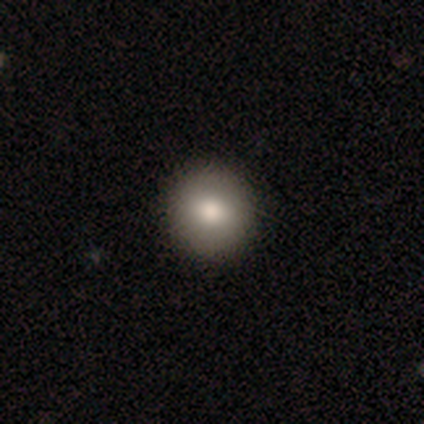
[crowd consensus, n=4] This appears to be a smooth galaxy with no disk features (75%) that is round (100%). Merging: none (100%).